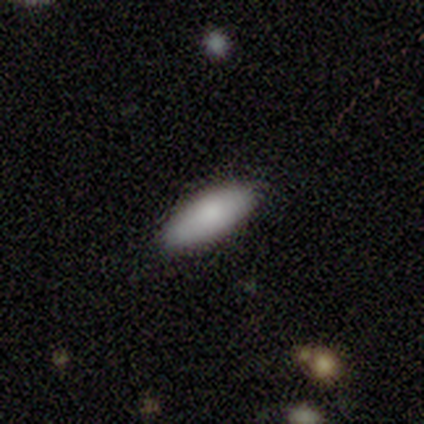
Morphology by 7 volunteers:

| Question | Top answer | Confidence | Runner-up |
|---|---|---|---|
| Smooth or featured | smooth | 86% | featured or disk (14%) |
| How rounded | in between | 50% | tied: cigar-shaped (50%) |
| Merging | none | 71% | minor disturbance (29%) |